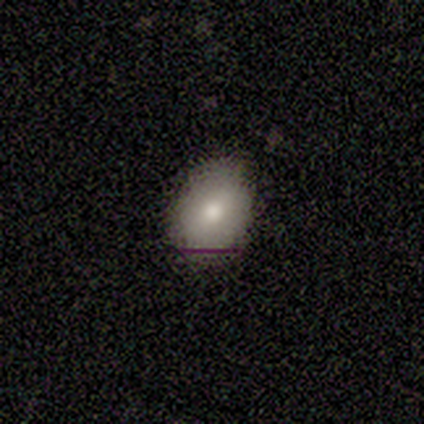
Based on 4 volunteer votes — A smooth galaxy with no disk features (50%, tied with star or artifact) that is round (50%, tied with in between). Merging: none (50%, tied with minor disturbance).